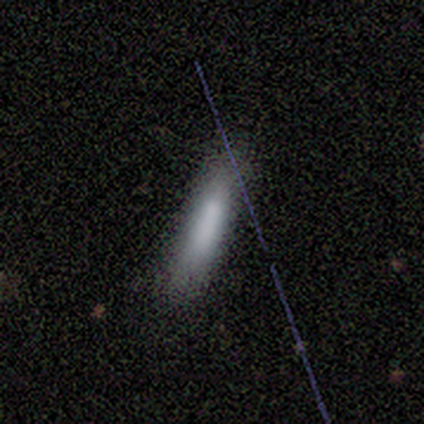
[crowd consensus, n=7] Smooth or featured: smooth — 43% (tied with featured or disk — 43%)
How rounded: cigar-shaped — 67% (in between — 33%)
Merging: none — 83% (minor disturbance — 17%)